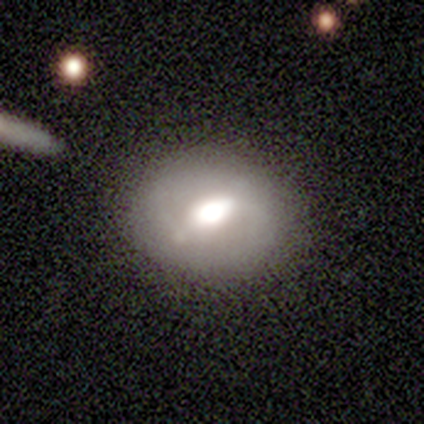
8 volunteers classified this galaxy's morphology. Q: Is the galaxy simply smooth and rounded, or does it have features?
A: featured or disk — 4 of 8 (50%).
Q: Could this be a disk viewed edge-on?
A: no — 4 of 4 (100%).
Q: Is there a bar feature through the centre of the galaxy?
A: weak — 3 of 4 (75%).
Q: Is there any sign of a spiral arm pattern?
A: yes — 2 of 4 (50%, tied with no).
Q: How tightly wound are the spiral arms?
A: medium — 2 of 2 (100%).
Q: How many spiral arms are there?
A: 2 — 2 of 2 (100%).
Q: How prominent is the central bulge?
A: large — 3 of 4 (75%).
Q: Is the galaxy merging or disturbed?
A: none — 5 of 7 (71%).